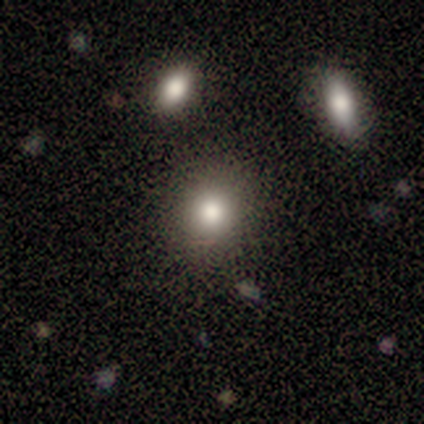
smooth-or-featured: smooth: 60% | featured or disk: 40% | star or artifact: 0%
  how-rounded: round: 67% | in between: 33% | cigar-shaped: 0%
  merging: none: 100% | minor disturbance: 0% | major disturbance: 0% | merger: 0%